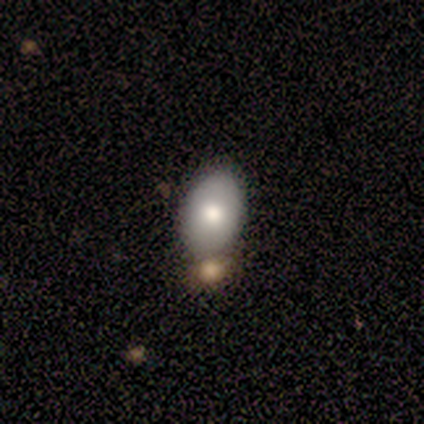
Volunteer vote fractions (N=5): Q: Smooth or featured?
A: smooth (100%)
Q: How rounded?
A: in between (100%)
Q: Merging?
A: none (80%); runner-up: merger (20%)